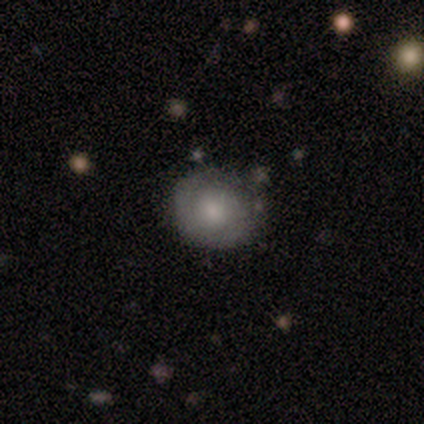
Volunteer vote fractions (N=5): This is clearly a featured or disk galaxy (80%). It is clearly not viewed edge-on (100%). Bar: clearly no (100%). Spiral arm pattern: likely no (75%). Central bulge: possibly moderate (50%). Merging: likely none (60%).